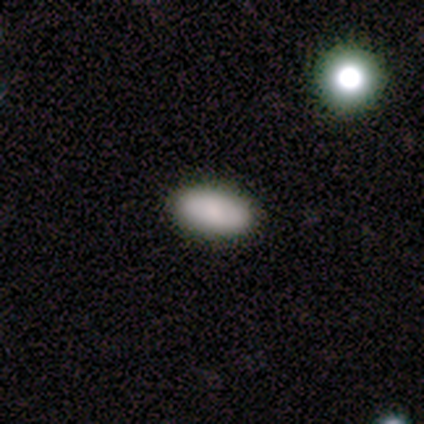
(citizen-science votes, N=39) A smooth galaxy with no disk features (87%) that is in between round and cigar-shaped (88%). Merging: none (97%).